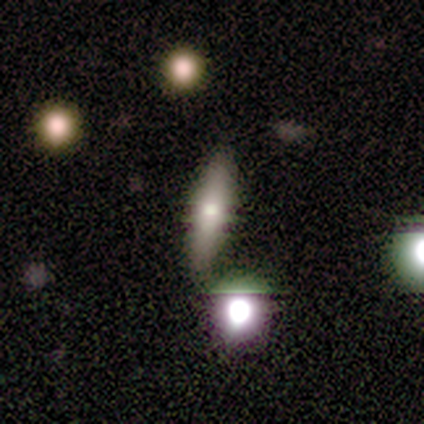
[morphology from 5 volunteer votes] A smooth galaxy with no disk features (60%) that is cigar-shaped (67%).

Vote fractions:
- Smooth or featured? smooth: 60% / featured or disk: 40% / star or artifact: 0%
- How rounded? cigar-shaped: 67% / in between: 33% / round: 0%
- Merging? none: 80% / major disturbance: 20% / minor disturbance: 0% / merger: 0%